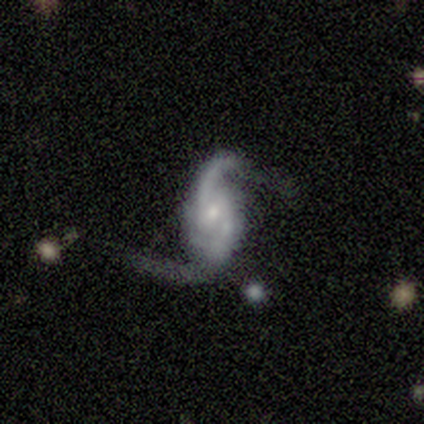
smooth_or_featured: featured or disk (p=1.00)
disk_edge_on: no (p=1.00)
bar: no (p=1.00)
has_spiral_arms: yes (p=1.00)
spiral_winding: loose (p=0.75) [alt: medium p=0.25]
spiral_arm_count: 2 (p=1.00)
bulge_size: small (p=0.75) [alt: none p=0.25]
merging: major disturbance (p=0.50) [alt: minor disturbance p=0.25]